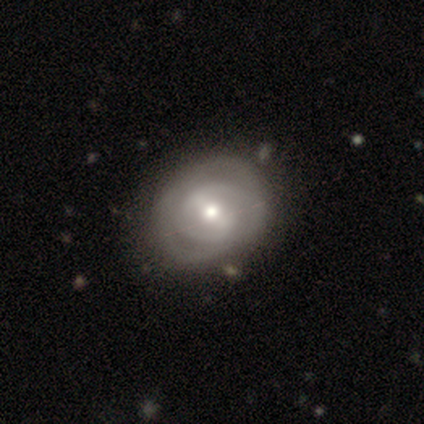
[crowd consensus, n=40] featured or disk 82%, smooth 18%, star or artifact 0%. Down the decision tree: edge-on disk — no (97%); bar — weak (41%); spiral arms — yes (94%); spiral arm count — 2 (57%); spiral winding — tight (63%); bulge size — moderate (81%); merging — none (55%).